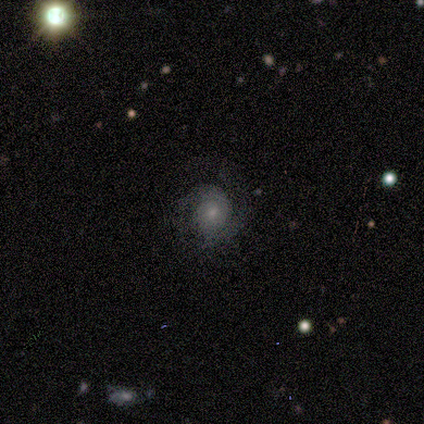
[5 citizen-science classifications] Morphology: type=featured or disk (60%); edge-on=no (100%); bar=no (100%); spiral arms=yes (100%); winding=tight (100%); arm count=2 (67%); bulge=moderate (67%); merging=none (80%).